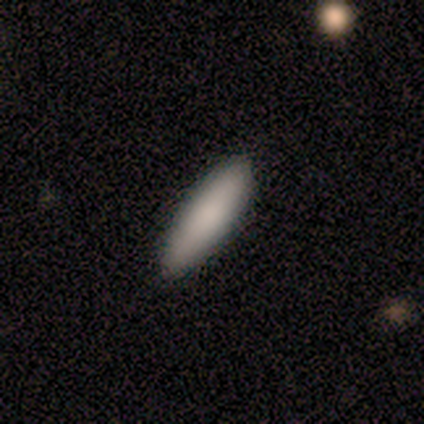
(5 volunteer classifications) A smooth galaxy with no disk features (100%) that is cigar-shaped (80%).

Vote fractions:
- Smooth or featured? smooth: 100% / featured or disk: 0% / star or artifact: 0%
- How rounded? cigar-shaped: 80% / in between: 20% / round: 0%
- Merging? none: 100% / minor disturbance: 0% / major disturbance: 0% / merger: 0%